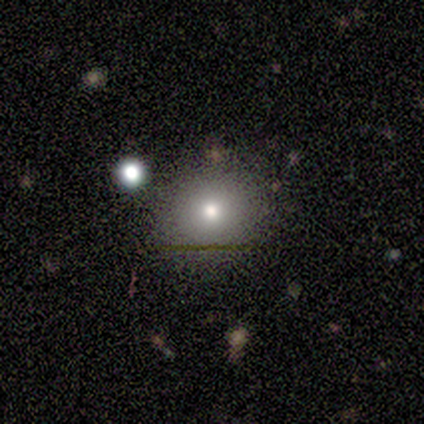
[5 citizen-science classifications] This is clearly a smooth galaxy (80%). How rounded: likely round (75%). Merging: likely none (75%).